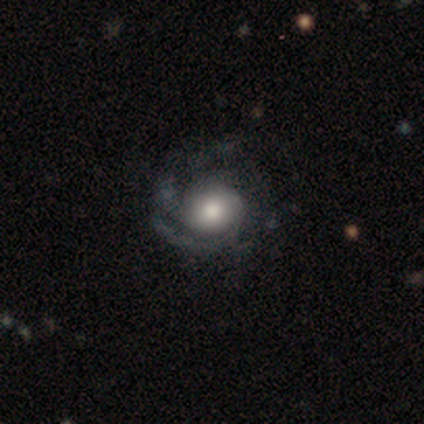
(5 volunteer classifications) Smooth or featured: featured or disk — 60% (smooth — 40%)
Edge-on disk: no — 100%
Bar: no — 67% (weak — 33%)
Spiral arms: yes — 100%
Spiral winding: tight — 67% (medium — 33%)
Spiral arm count: 2 — 33% (tied with 4 — 33%; more than 4 — 33%)
Bulge size: large — 67% (moderate — 33%)
Merging: none — 80% (minor disturbance — 20%)